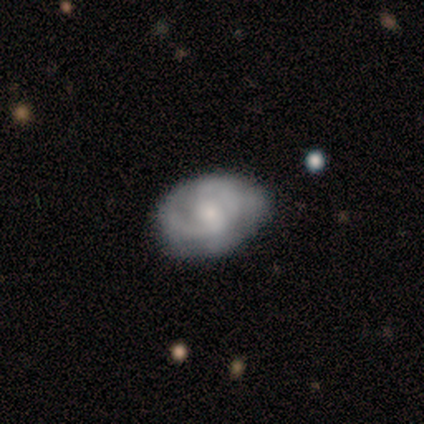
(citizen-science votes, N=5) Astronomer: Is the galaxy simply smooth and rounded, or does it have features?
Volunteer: featured or disk — 100%.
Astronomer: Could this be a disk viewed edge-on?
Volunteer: no — 100%.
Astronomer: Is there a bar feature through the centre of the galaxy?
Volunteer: no — 60% (runner-up: weak, 40%).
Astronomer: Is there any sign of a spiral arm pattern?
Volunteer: yes — 80%.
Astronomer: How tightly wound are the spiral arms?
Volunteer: tight — 75%.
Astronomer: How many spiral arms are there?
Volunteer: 1 — 25%, tied with 2, 3 and can't tell at 25%.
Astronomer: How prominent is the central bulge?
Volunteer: small — 60% (runner-up: moderate, 40%).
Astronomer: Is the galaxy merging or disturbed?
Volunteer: minor disturbance — 60% (runner-up: none, 40%).